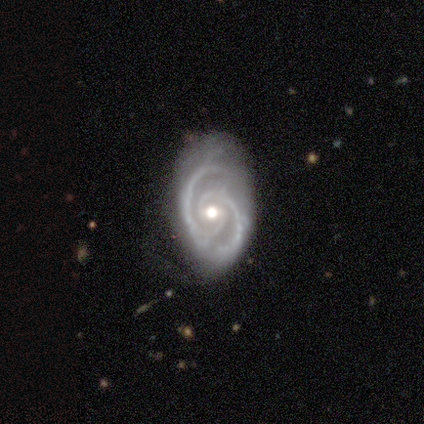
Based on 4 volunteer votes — Smooth or featured? featured or disk (100%)
Edge-on disk? no (100%)
Bar? weak (75%)
Spiral arms? yes (100%)
Spiral winding? tight (50%, tied with medium)
Spiral arm count? 2 (100%)
Bulge size? moderate (75%)
Merging? none (50%)